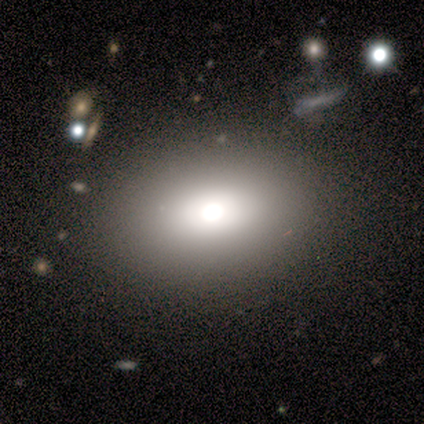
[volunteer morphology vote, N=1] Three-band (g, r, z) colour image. It shows a featured or disk galaxy (100%) with no bar (100%), no spiral arms (100%) and a large central bulge (100%). Merging: none (100%).